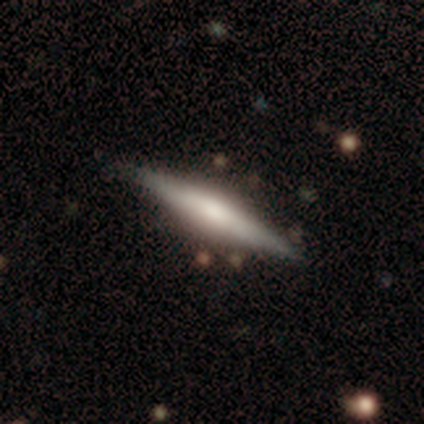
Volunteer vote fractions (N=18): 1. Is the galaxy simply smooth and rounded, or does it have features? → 56% featured or disk, 39% smooth, 6% star or artifact.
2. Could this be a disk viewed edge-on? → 100% yes, 0% no.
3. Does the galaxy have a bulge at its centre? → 70% rounded, 20% boxy, 10% none.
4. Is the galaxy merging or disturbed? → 88% none, 6% major disturbance, 6% merger, 0% minor disturbance.